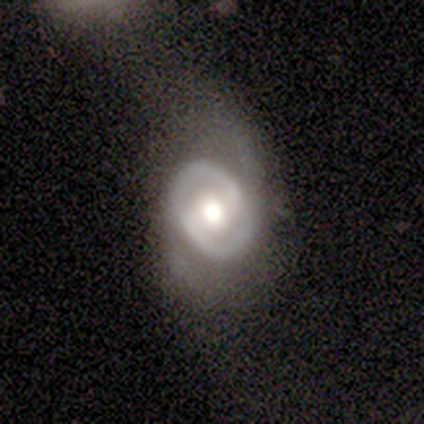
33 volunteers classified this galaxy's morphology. featured or disk 91%, smooth 6%, star or artifact 3%. Down the decision tree: edge-on disk — no (100%); bar — no (40%); spiral arms — yes (77%); spiral arm count — 2 (87%); spiral winding — tight (61%); bulge size — moderate (50%); merging — none (62%).